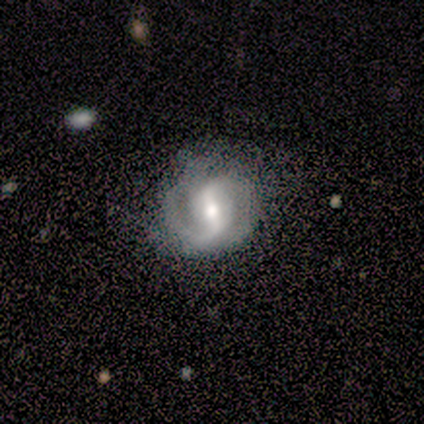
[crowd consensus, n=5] Smooth or featured: featured or disk — 100%
Edge-on disk: no — 100%
Bar: strong — 80% (weak — 20%)
Spiral arms: yes — 100%
Spiral winding: medium — 80% (loose — 20%)
Spiral arm count: 2 — 100%
Bulge size: moderate — 60% (small — 40%)
Merging: none — 60% (minor disturbance — 40%)